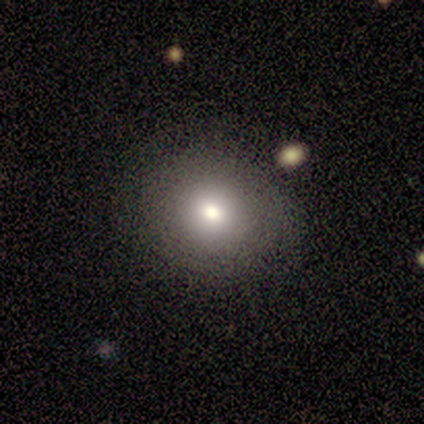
A smooth galaxy with no disk features (72%) that is round (83%). Merging: none (78%).